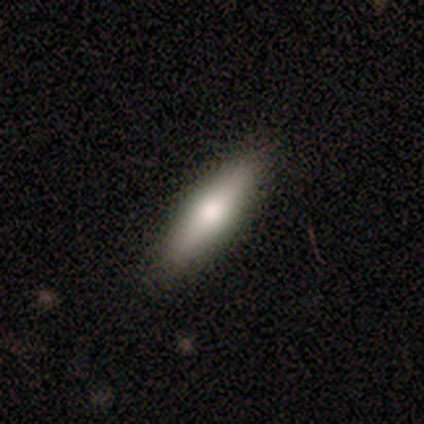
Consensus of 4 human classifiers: smooth_or_featured: featured or disk (p=0.50) [alt: smooth p=0.25]
disk_edge_on: yes (p=0.50) [tied with: no p=0.50]
edge_on_bulge: rounded (p=1.00)
merging: none (p=1.00)